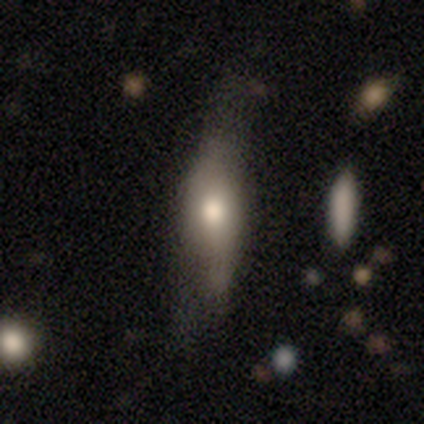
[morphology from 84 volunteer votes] smooth_or_featured: smooth (p=0.69) [alt: featured or disk p=0.24]
how_rounded: in between (p=0.55) [alt: cigar-shaped p=0.43]
merging: none (p=0.40) [alt: minor disturbance p=0.37]